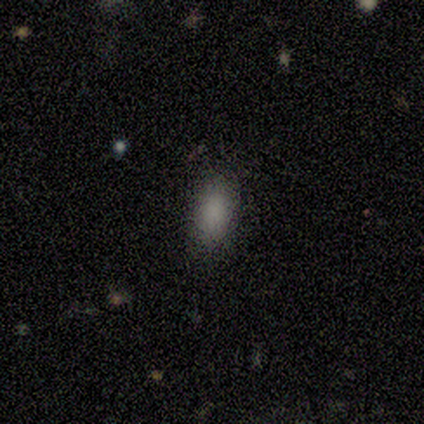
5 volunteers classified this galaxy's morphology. Smooth or featured? smooth (80%)
How rounded? in between (100%)
Merging? none (50%, tied with minor disturbance)